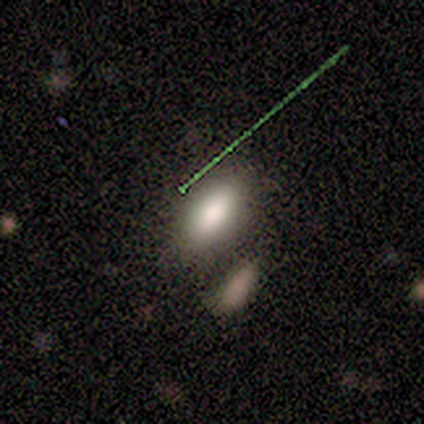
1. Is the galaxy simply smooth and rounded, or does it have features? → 60% smooth, 20% featured or disk, 20% star or artifact.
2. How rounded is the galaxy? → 100% in between, 0% round, 0% cigar-shaped.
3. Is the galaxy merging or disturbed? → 75% none, 25% minor disturbance, 0% major disturbance, 0% merger.